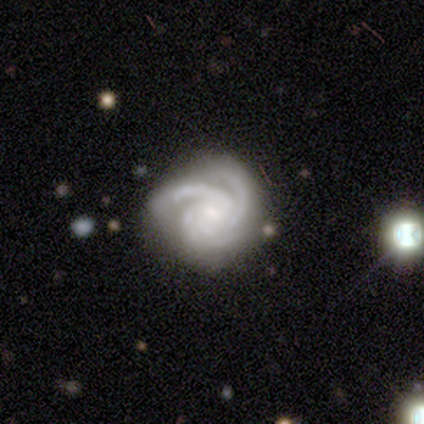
featured or disk 100%, smooth 0%, star or artifact 0%. Down the decision tree: edge-on disk — no (89%); bar — no (75%); spiral arms — yes (100%); spiral arm count — 3 (100%); spiral winding — tight (88%); bulge size — moderate (38%, tied with none); merging — none (78%).